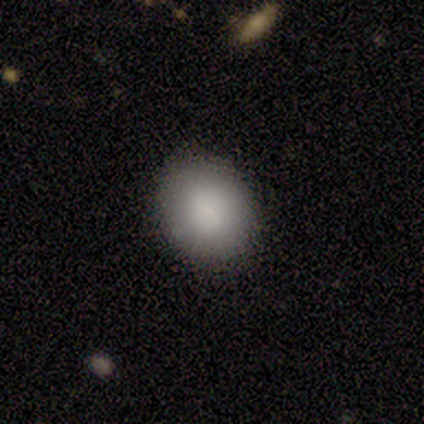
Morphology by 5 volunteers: Volunteers were most divided on "how rounded" (2-way tie): round: 50%, in between: 50%, cigar-shaped: 0%. More confident: smooth or featured — smooth (80%); merging — none (80%).